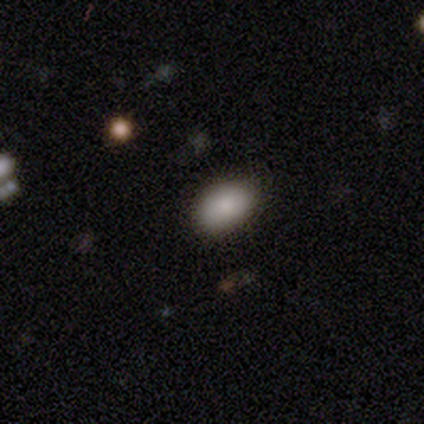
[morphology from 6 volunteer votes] Q: Smooth or featured?
A: smooth (100%)
Q: How rounded?
A: in between (100%)
Q: Merging?
A: none (67%); runner-up: minor disturbance (17%)